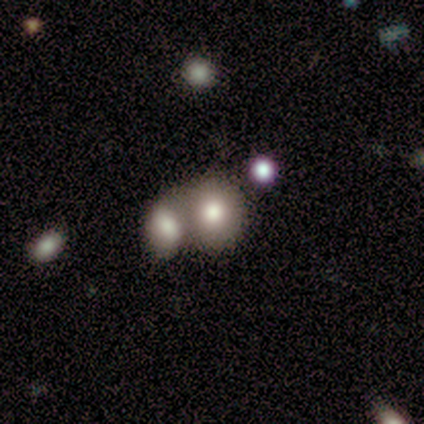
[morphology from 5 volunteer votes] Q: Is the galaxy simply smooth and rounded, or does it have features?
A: smooth — 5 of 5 (100%).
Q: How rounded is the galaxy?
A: round — 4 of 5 (80%).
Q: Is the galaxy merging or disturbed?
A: merger — 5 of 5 (100%).